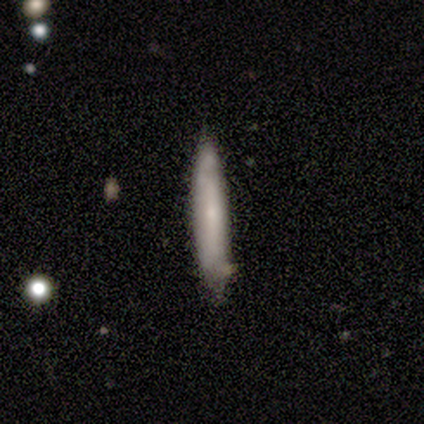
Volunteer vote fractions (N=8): This appears to be a smooth galaxy with no disk features (75%) that is cigar-shaped (100%). Merging: none (88%).